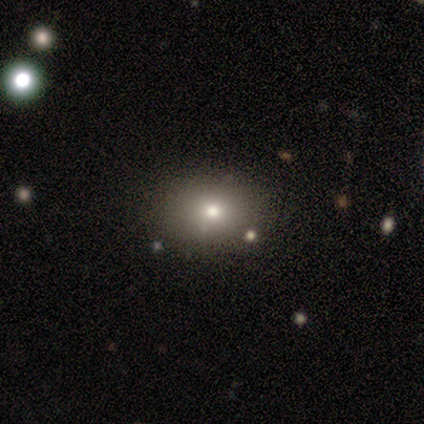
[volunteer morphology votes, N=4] Q: Smooth or featured?
A: smooth (100%)
Q: How rounded?
A: round (50%); tied with: in between (50%)
Q: Merging?
A: none (75%); runner-up: minor disturbance (25%)